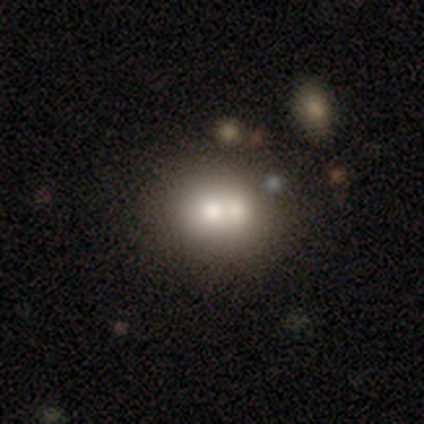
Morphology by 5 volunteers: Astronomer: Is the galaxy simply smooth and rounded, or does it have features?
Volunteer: smooth — 40%, tied with featured or disk at 40%.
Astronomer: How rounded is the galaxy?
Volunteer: round — 50%, tied with in between at 50%.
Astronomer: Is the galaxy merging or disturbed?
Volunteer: merger — 75%.